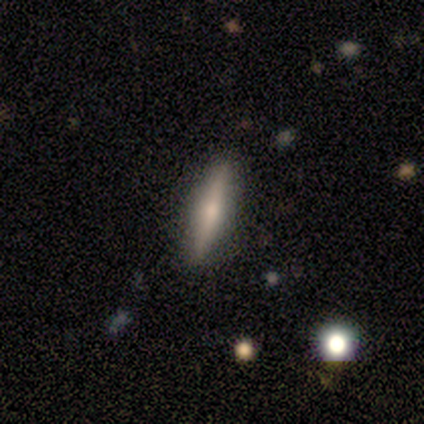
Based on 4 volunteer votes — Smooth or featured?
  - featured or disk: 75% *
  - smooth: 25%
  - star or artifact: 0%
Edge-on disk?
  - yes: 100% *
  - no: 0%
Edge-on bulge?
  - rounded: 67% *
  - none: 33%
  - boxy: 0%
Merging?
  - none: 50% * (tied)
  - major disturbance: 50% * (tied)
  - minor disturbance: 0%
  - merger: 0%